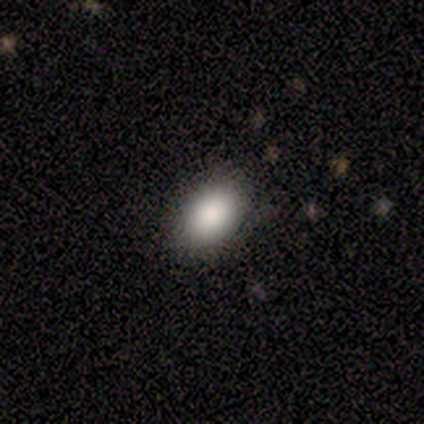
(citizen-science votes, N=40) This is clearly a smooth galaxy (82%). How rounded: clearly in between (88%). Merging: clearly none (89%).